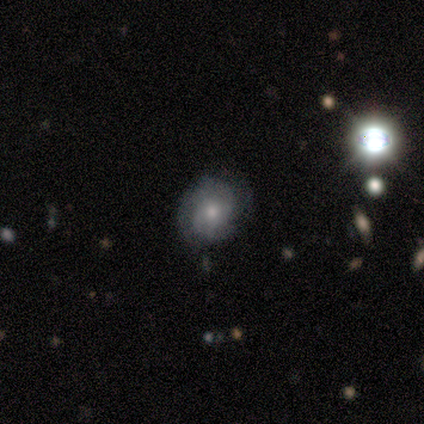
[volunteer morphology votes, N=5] smooth-or-featured: smooth: 60% | featured or disk: 40% | star or artifact: 0%
  how-rounded: round: 100% | in between: 0% | cigar-shaped: 0%
  merging: none: 40% (tied) | minor disturbance: 40% (tied) | major disturbance: 20% | merger: 0%